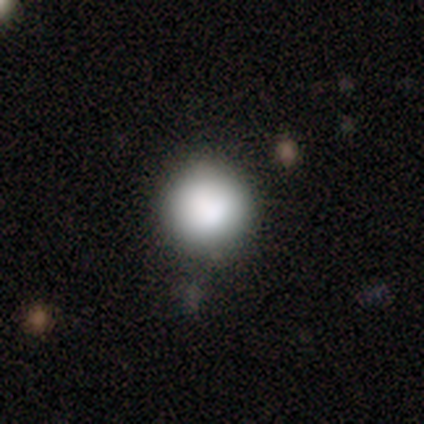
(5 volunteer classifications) Smooth or featured?
  - smooth: 80% *
  - featured or disk: 20%
  - star or artifact: 0%
How rounded?
  - round: 100% *
  - in between: 0%
  - cigar-shaped: 0%
Merging?
  - none: 80% *
  - major disturbance: 20%
  - minor disturbance: 0%
  - merger: 0%